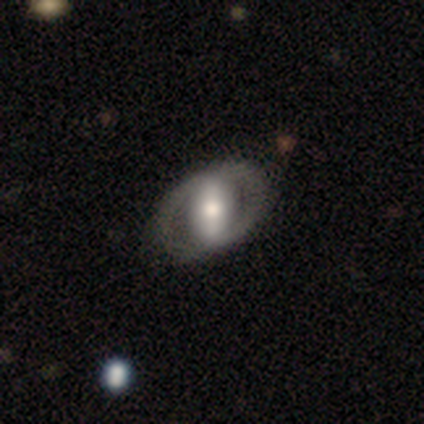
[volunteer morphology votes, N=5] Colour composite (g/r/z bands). It shows a featured or disk galaxy (100%) with a strong bar (60%), no spiral arms (100%) and a moderate central bulge (80%). Merging: none (80%).